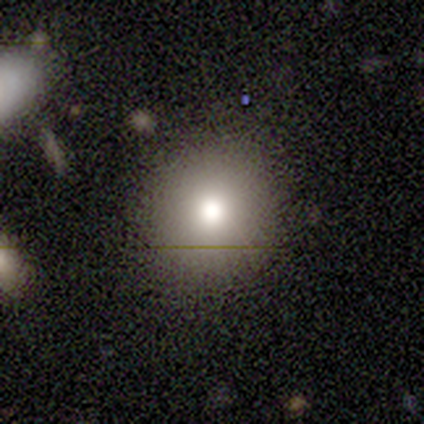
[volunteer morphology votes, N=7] Overall: smooth (86%). How rounded: round (83%). Merging: none (50%, tied with minor disturbance).